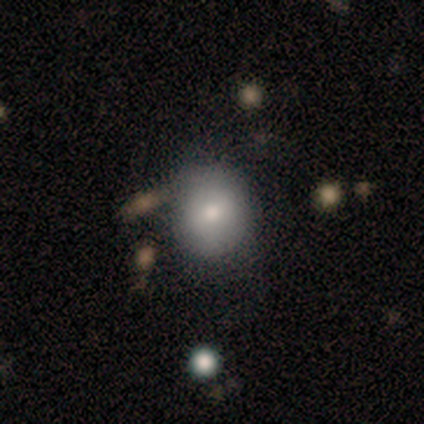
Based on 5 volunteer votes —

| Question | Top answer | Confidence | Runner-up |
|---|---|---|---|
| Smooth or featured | smooth | 80% | star or artifact (20%) |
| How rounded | round | 75% | in between (25%) |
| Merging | none | 75% | major disturbance (25%) |